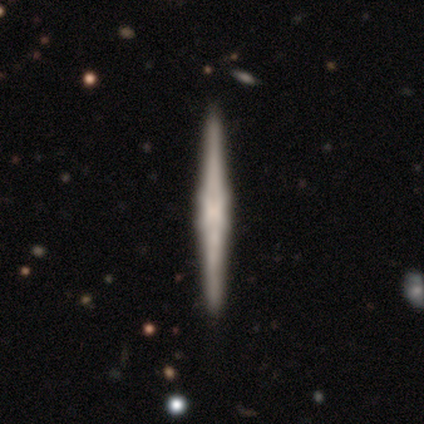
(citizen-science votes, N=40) Smooth or featured? 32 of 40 (80%) said featured or disk. Edge-on disk? 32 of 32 (100%) said yes. Edge-on bulge? 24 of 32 (75%) said boxy. Merging? 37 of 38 (97%) said none.